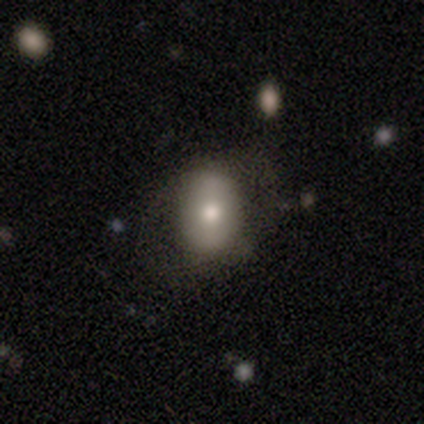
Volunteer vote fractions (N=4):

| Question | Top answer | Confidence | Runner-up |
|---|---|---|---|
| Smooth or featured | smooth | 50% | tied: featured or disk (50%) |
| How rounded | round | 50% | tied: in between (50%) |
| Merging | none | 75% | major disturbance (25%) |